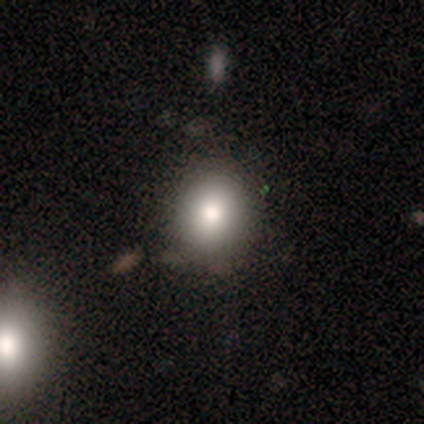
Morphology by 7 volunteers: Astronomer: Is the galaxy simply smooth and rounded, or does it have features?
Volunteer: smooth — 71%.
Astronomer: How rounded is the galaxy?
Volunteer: round — 80%.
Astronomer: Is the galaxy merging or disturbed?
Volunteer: none — 83%.